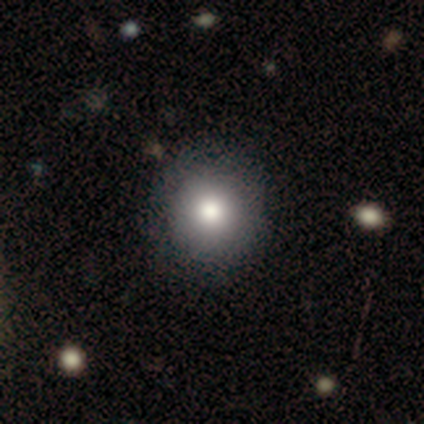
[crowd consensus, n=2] smooth_or_featured: smooth (p=0.50) [tied with: star or artifact p=0.50]
how_rounded: round (p=1.00)
merging: none (p=1.00)